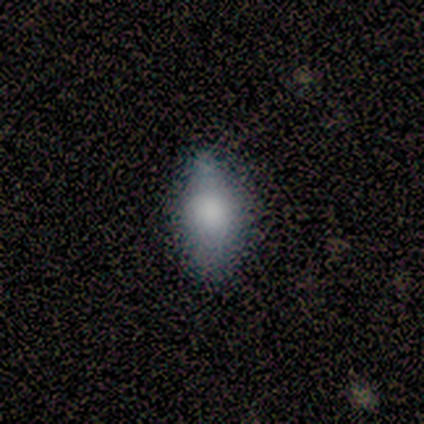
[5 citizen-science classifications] Volunteers were most divided on "merging": none: 60%, minor disturbance: 40%, major disturbance: 0%, merger: 0%. More confident: smooth or featured — smooth (100%); how rounded — in between (80%).